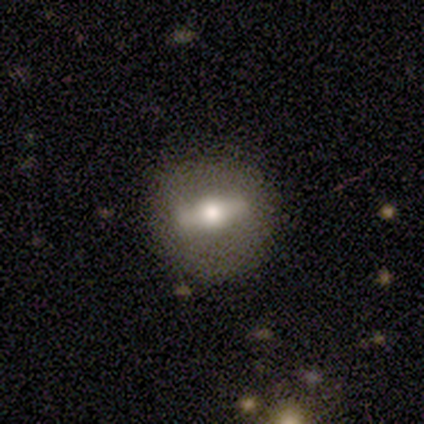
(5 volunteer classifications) This appears to be a featured or disk galaxy (80%) viewed edge-on (50%, tied with no) with a rounded central bulge (100%). Merging: none (100%).